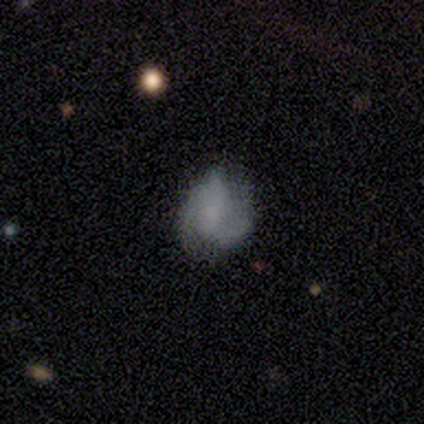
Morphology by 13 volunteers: Overall: smooth (46%, tied with featured or disk). How rounded: in between (50%; round 33%). Merging: none (42%, tied with minor disturbance).